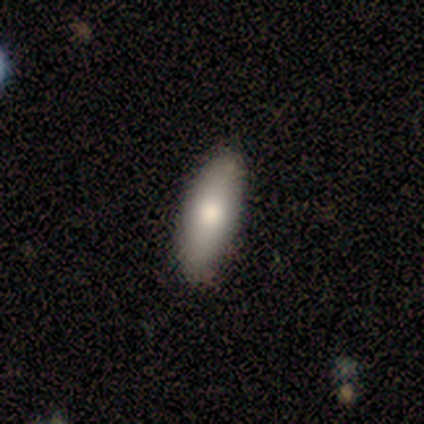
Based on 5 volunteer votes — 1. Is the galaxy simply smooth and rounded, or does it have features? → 80% smooth, 20% featured or disk, 0% star or artifact.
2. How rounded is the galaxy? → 75% in between, 25% cigar-shaped, 0% round.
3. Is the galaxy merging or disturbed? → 80% none, 20% minor disturbance, 0% major disturbance, 0% merger.